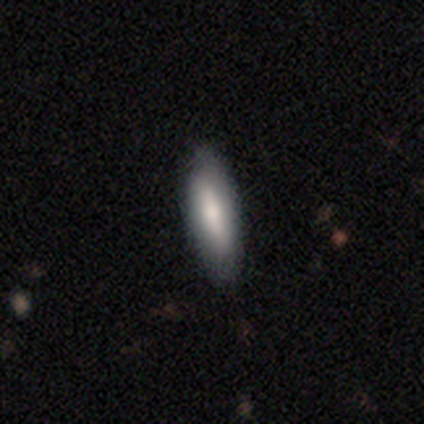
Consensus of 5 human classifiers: A smooth galaxy with no disk features (100%) that is in between round and cigar-shaped (80%).

Vote fractions:
- Smooth or featured? smooth: 100% / featured or disk: 0% / star or artifact: 0%
- How rounded? in between: 80% / cigar-shaped: 20% / round: 0%
- Merging? none: 80% / minor disturbance: 20% / major disturbance: 0% / merger: 0%